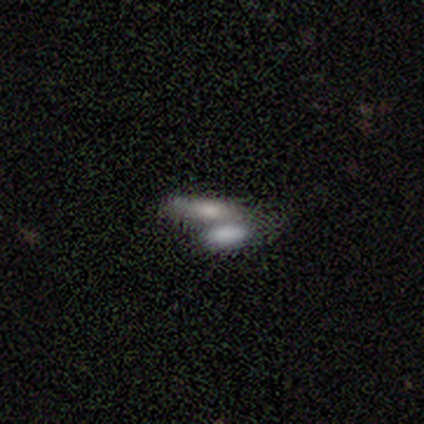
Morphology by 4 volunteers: Volunteers were most divided on "how rounded": in between: 67%, cigar-shaped: 33%, round: 0%. More confident: merging — merger (100%); smooth or featured — smooth (75%).